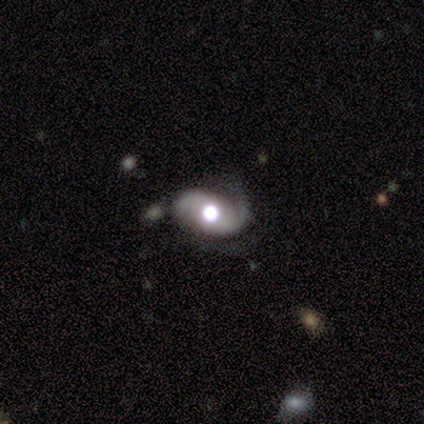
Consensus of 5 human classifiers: Morphology: type=featured or disk (100%); edge-on=no (100%); bar=no (60%); spiral arms=yes (80%); winding=tight (50%); arm count=2 (100%); bulge=large (100%); merging=minor disturbance (60%).